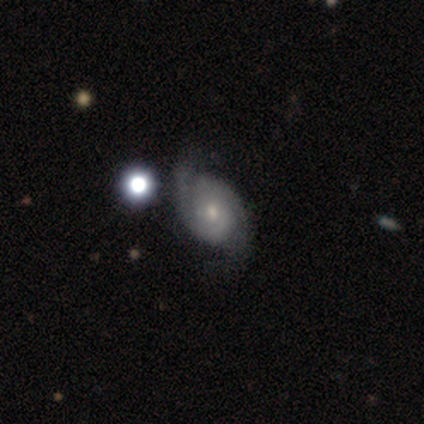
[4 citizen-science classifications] A featured or disk galaxy (100%) with a weak bar (50%, tied with no), 2 (100%) loose (50%) spiral arms (100%) and a moderate central bulge (100%). Merging: none (75%).